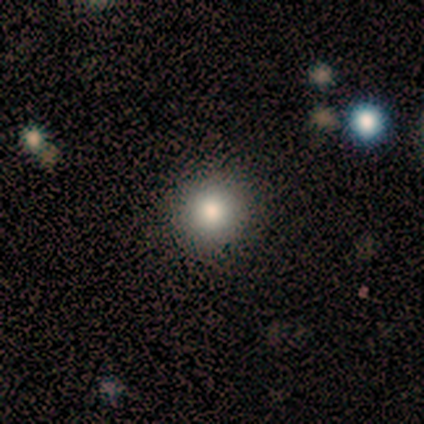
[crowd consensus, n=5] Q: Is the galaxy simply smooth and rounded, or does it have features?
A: smooth — 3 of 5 (60%).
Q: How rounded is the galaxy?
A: round — 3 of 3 (100%).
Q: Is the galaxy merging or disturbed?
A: none — 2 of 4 (50%, tied with minor disturbance).